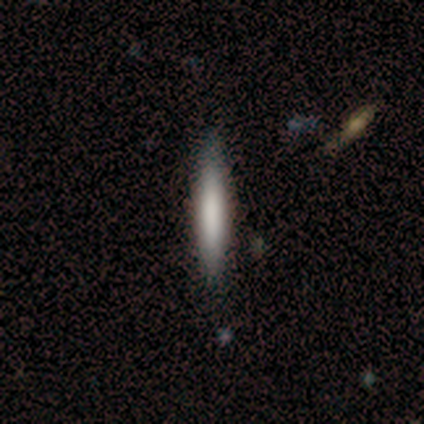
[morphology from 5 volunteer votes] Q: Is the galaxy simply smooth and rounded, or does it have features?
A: smooth — 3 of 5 (60%).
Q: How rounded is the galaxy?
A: cigar-shaped — 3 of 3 (100%).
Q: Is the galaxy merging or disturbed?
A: none — 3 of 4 (75%).